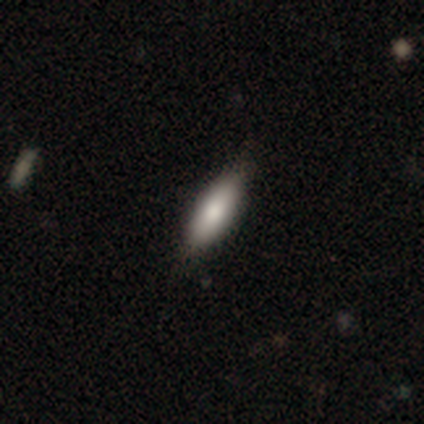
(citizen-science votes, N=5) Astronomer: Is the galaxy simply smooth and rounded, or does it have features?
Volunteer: smooth — 60% (runner-up: featured or disk, 40%).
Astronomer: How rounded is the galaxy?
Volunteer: cigar-shaped — 67%.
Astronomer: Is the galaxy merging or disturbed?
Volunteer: none — 80%.